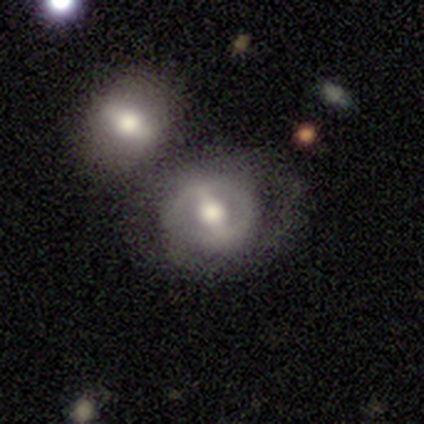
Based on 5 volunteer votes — A smooth galaxy with no disk features (40%, tied with featured or disk) that is round (50%, tied with in between).

Vote fractions:
- Smooth or featured? smooth: 40% (tied) / featured or disk: 40% (tied) / star or artifact: 20%
- How rounded? round: 50% (tied) / in between: 50% (tied) / cigar-shaped: 0%
- Merging? merger: 50% / none: 25% / major disturbance: 25% / minor disturbance: 0%